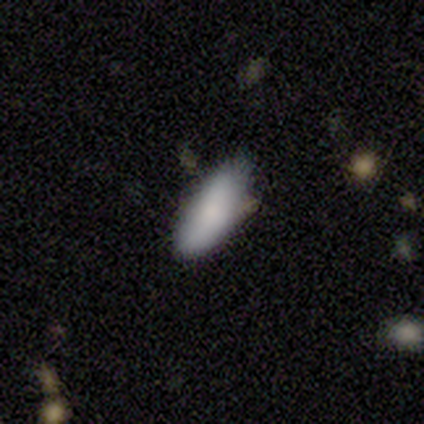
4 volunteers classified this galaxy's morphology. smooth-or-featured: smooth: 100% | featured or disk: 0% | star or artifact: 0%
  how-rounded: in between: 100% | round: 0% | cigar-shaped: 0%
  merging: none: 100% | minor disturbance: 0% | major disturbance: 0% | merger: 0%